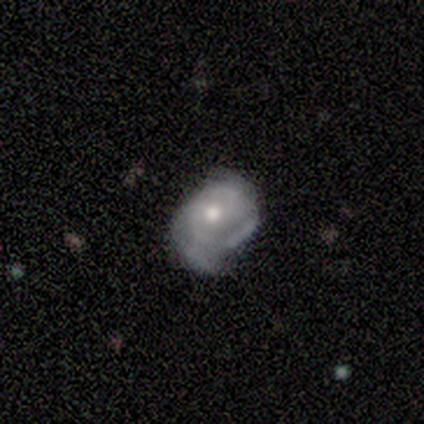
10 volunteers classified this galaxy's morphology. Smooth or featured?
  - featured or disk: 80% *
  - smooth: 20%
  - star or artifact: 0%
Edge-on disk?
  - no: 100% *
  - yes: 0%
Bar?
  - no: 88% *
  - weak: 12%
  - strong: 0%
Spiral arms?
  - yes: 50% * (tied)
  - no: 50% * (tied)
Spiral winding?
  - medium: 75% *
  - tight: 25%
  - loose: 0%
Spiral arm count?
  - can't tell: 75% *
  - 2: 25%
  - 1: 0%
  - 3: 0%
  - 4: 0%
  - more than 4: 0%
Bulge size?
  - moderate: 88% *
  - small: 12%
  - dominant: 0%
  - large: 0%
  - none: 0%
Merging?
  - major disturbance: 40% *
  - none: 30%
  - minor disturbance: 30%
  - merger: 0%